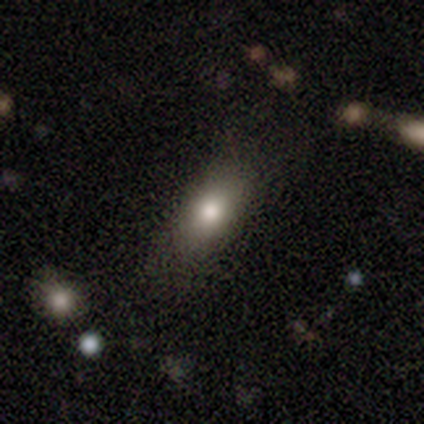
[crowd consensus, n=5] Smooth or featured: smooth — 80% (star or artifact — 20%)
How rounded: round — 50% (tied with in between — 50%)
Merging: none — 50% (minor disturbance — 25%)